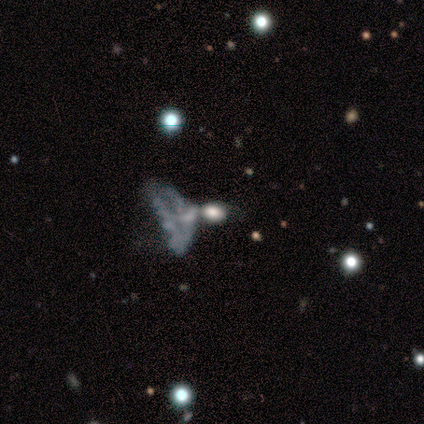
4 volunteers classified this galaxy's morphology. A featured or disk galaxy (50%) with no bar (100%), no spiral arms (100%) and a moderate central bulge (50%, tied with small). Merging: major disturbance (100%).